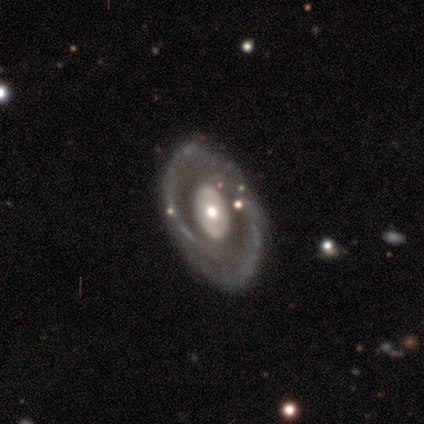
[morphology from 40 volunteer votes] featured or disk 78%, smooth 22%, star or artifact 0%. Down the decision tree: edge-on disk — no (87%); bar — no (78%); spiral arms — no (63%); bulge size — moderate (59%); merging — none (68%).